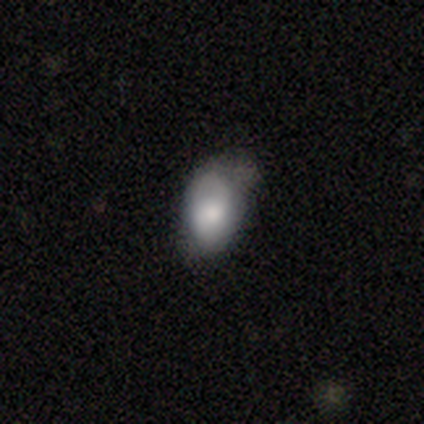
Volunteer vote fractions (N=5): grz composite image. It shows a smooth galaxy with no disk features (80%) that is in between round and cigar-shaped (75%). Merging: none (50%).